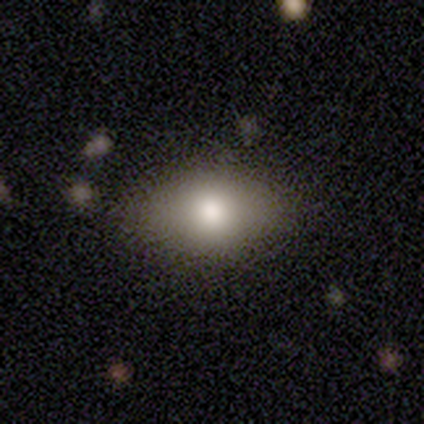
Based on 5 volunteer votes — Overall: smooth (60%; featured or disk 40%). How rounded: in between (67%; round 33%). Merging: none (80%).